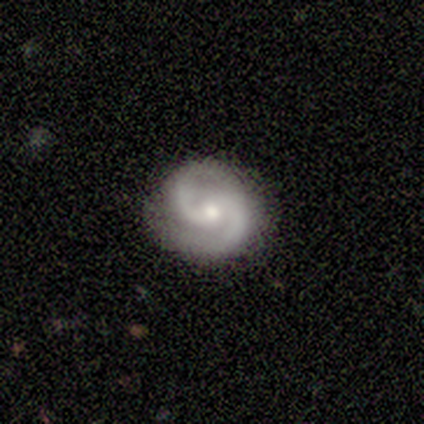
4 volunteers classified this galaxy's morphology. This appears to be a featured or disk galaxy (75%) with a weak bar (67%), 2 (100%) medium (67%) spiral arms (100%) and a moderate central bulge (100%). Merging: none (75%).